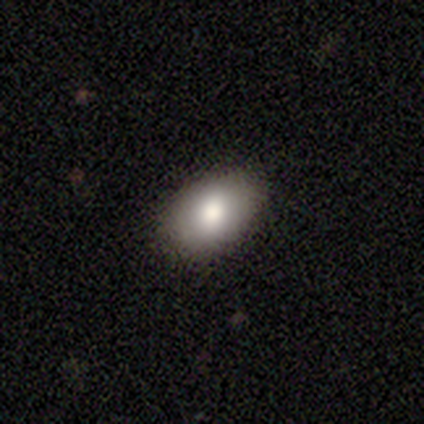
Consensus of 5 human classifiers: A smooth galaxy with no disk features (100%) that is in between round and cigar-shaped (100%).

Vote fractions:
- Smooth or featured? smooth: 100% / featured or disk: 0% / star or artifact: 0%
- How rounded? in between: 100% / round: 0% / cigar-shaped: 0%
- Merging? none: 80% / minor disturbance: 20% / major disturbance: 0% / merger: 0%